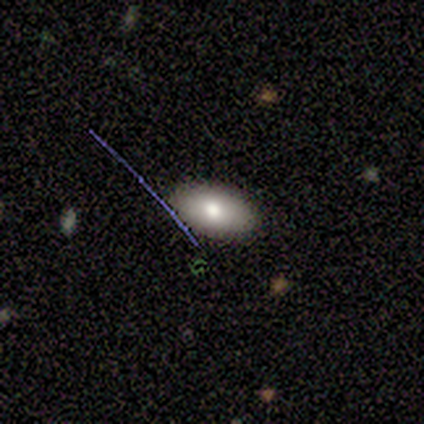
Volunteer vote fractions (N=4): Smooth or featured? smooth (100%)
How rounded? in between (100%)
Merging? none (100%)